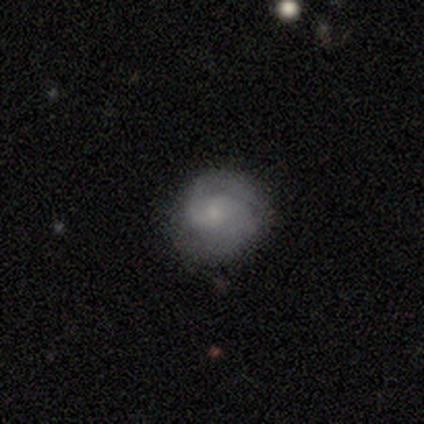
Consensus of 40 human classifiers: Smooth or featured? 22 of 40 (55%) said featured or disk. Edge-on disk? 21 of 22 (95%) said no. Bar? 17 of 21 (81%) said no. Spiral arms? 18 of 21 (86%) said yes. Spiral winding? 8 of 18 (44%) said tight. Spiral arm count? 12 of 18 (67%) said 2. Bulge size? 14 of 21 (67%) said small. Merging? 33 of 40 (82%) said none.